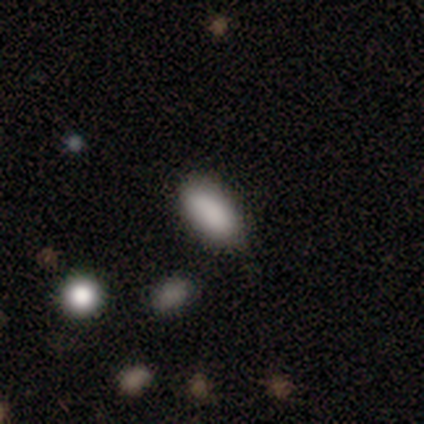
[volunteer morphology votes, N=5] Volunteers were most divided on "merging": none: 80%, minor disturbance: 20%, major disturbance: 0%, merger: 0%. More confident: smooth or featured — smooth (100%); how rounded — in between (100%).